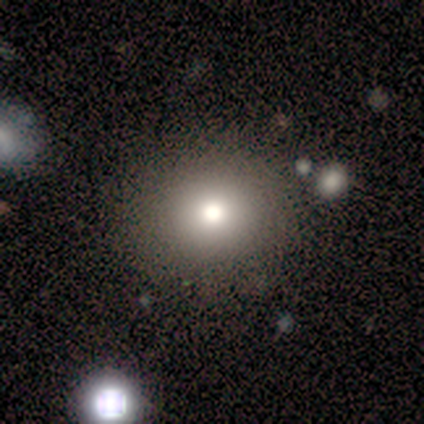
This is clearly a smooth galaxy (100%). How rounded: clearly round (100%). Merging: likely none (60%).